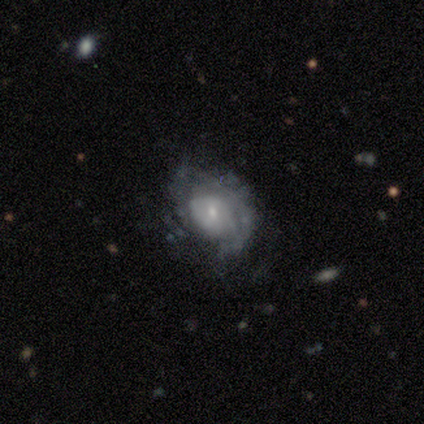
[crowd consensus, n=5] smooth_or_featured: featured or disk (p=0.80) [alt: star or artifact p=0.20]
disk_edge_on: no (p=1.00)
bar: no (p=0.75) [alt: weak p=0.25]
has_spiral_arms: yes (p=0.50) [tied with: no p=0.50]
spiral_winding: medium (p=0.50) [tied with: loose p=0.50]
spiral_arm_count: 2 (p=0.50) [tied with: can't tell p=0.50]
bulge_size: small (p=1.00)
merging: none (p=0.50) [alt: minor disturbance p=0.25]